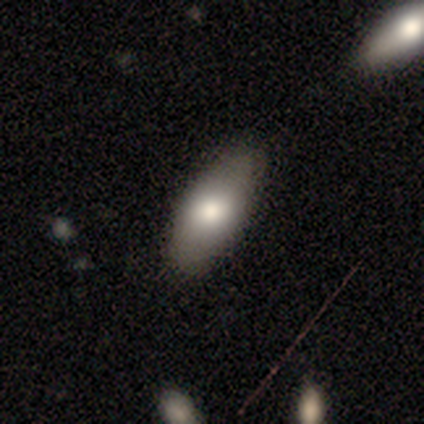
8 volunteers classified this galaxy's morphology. Volunteers were most divided on "smooth or featured": smooth: 88%, featured or disk: 12%, star or artifact: 0%. More confident: how rounded — in between (100%); merging — none (100%).